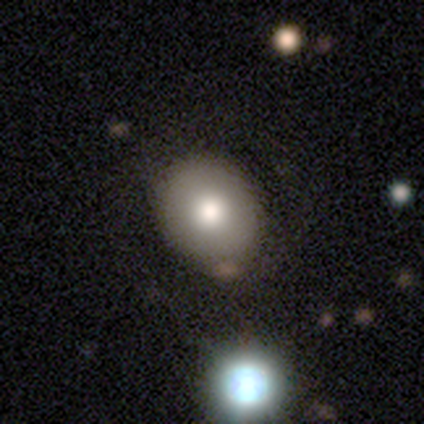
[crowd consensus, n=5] Overall: smooth (60%; featured or disk 20%). How rounded: in between (67%; round 33%). Merging: none (75%).